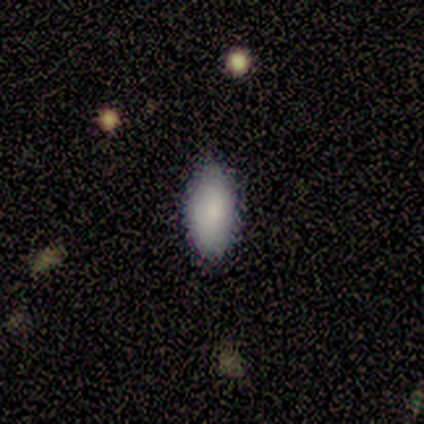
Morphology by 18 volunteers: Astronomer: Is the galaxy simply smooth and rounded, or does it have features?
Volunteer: smooth — 94%.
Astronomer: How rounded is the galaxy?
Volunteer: in between — 100%.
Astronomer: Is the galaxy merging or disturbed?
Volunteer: none — 89%.